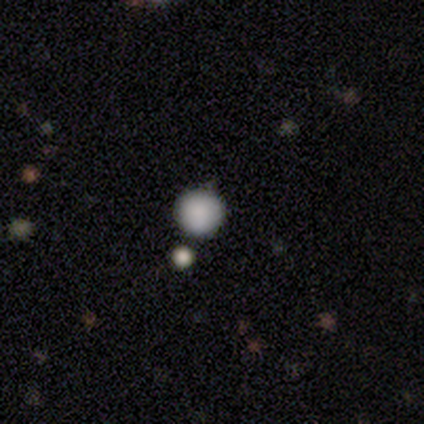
Volunteers were most divided on "merging": none: 60%, minor disturbance: 40%, major disturbance: 0%, merger: 0%. More confident: how rounded — round (100%); smooth or featured — smooth (83%).